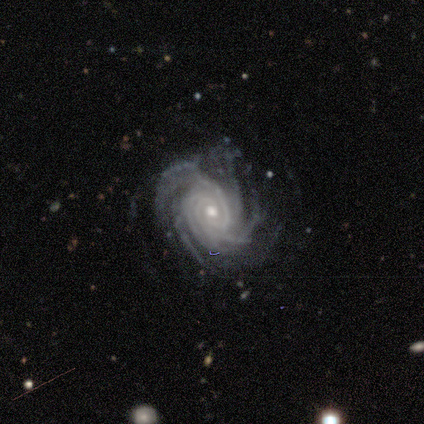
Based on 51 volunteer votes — smooth-or-featured: featured or disk: 98% | star or artifact: 2% | smooth: 0%
  disk-edge-on: no: 100% | yes: 0%
    bar: no: 90% | weak: 6% | strong: 4%
    has-spiral-arms: yes: 100% | no: 0%
      spiral-winding: tight: 82% | medium: 18% | loose: 0%
      spiral-arm-count: more than 4: 60% | 4: 18% | 3: 12% | can't tell: 10% | 1: 0% | 2: 0%
    bulge-size: moderate: 74% | small: 24% | large: 2% | dominant: 0% | none: 0%
  merging: none: 60% | minor disturbance: 24% | major disturbance: 12% | merger: 4%